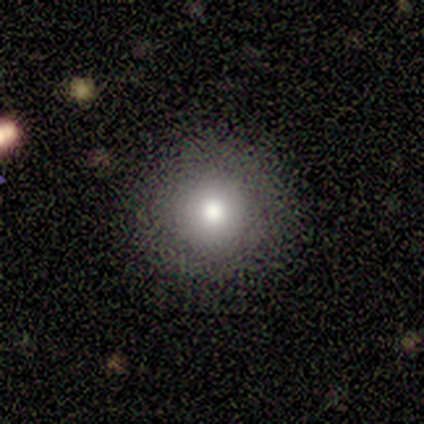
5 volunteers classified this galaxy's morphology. smooth_or_featured: star or artifact (p=0.60) [alt: smooth p=0.40]